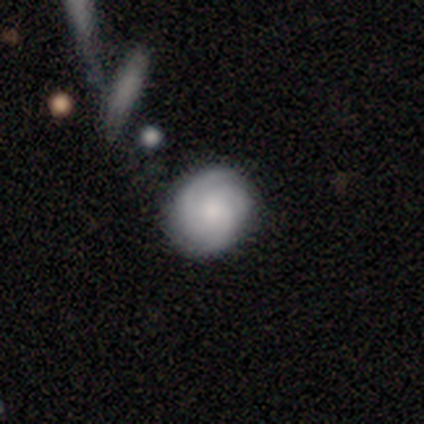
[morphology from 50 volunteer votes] Smooth or featured?
  - featured or disk: 56% *
  - smooth: 34%
  - star or artifact: 10%
Edge-on disk?
  - no: 100% *
  - yes: 0%
Bar?
  - no: 79% *
  - weak: 18%
  - strong: 4%
Spiral arms?
  - yes: 93% *
  - no: 7%
Spiral winding?
  - tight: 81% *
  - medium: 12%
  - loose: 8%
Spiral arm count?
  - 3: 65% *
  - can't tell: 19%
  - 2: 8%
  - 4: 8%
  - 1: 0%
  - more than 4: 0%
Bulge size?
  - moderate: 43% *
  - small: 36%
  - none: 18%
  - dominant: 4%
  - large: 0%
Merging?
  - none: 80% *
  - minor disturbance: 16%
  - major disturbance: 2%
  - merger: 2%